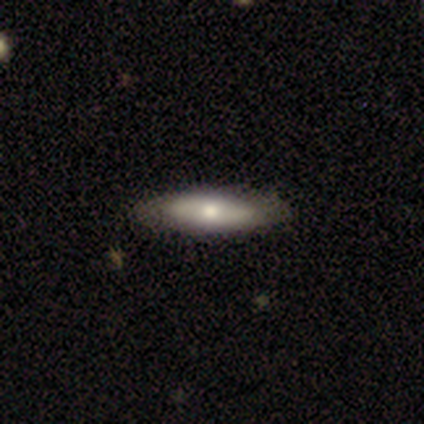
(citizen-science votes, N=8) Smooth or featured?
  - smooth: 62% *
  - featured or disk: 38%
  - star or artifact: 0%
How rounded?
  - cigar-shaped: 60% *
  - in between: 40%
  - round: 0%
Merging?
  - none: 62% *
  - minor disturbance: 38%
  - major disturbance: 0%
  - merger: 0%